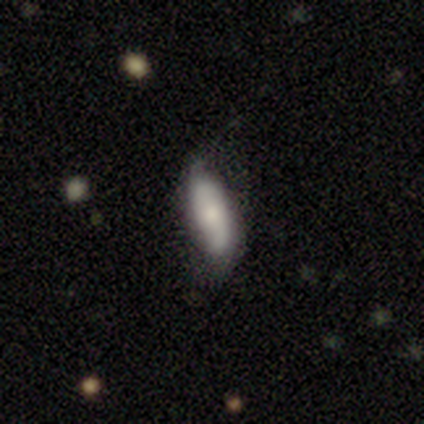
Volunteers were most divided on "smooth or featured": smooth: 60%, featured or disk: 40%, star or artifact: 0%. More confident: how rounded — in between (67%); merging — none (60%).